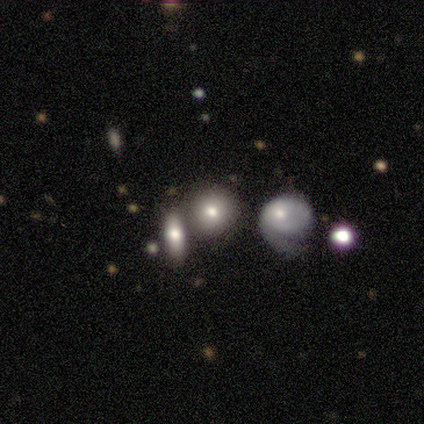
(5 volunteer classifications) Smooth or featured? smooth (80%)
How rounded? round (75%)
Merging? none (80%)